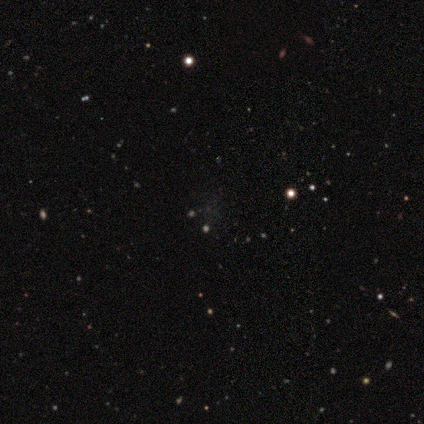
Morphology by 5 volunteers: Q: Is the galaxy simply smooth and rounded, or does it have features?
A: star or artifact — 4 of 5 (80%).